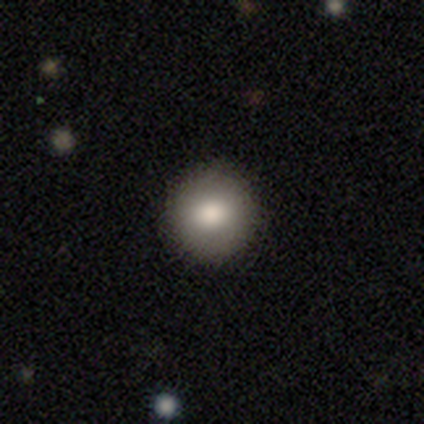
Morphology: type=smooth (60%); roundness=round (100%); merging=none (100%).